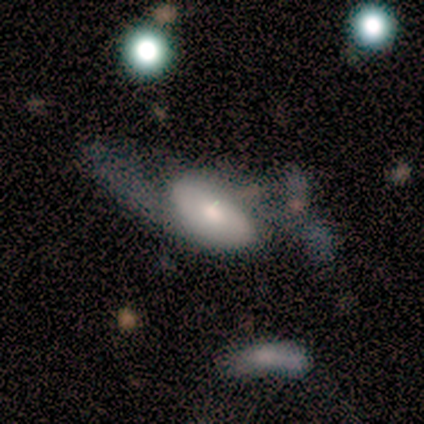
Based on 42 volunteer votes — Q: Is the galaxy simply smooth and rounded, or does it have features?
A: featured or disk — 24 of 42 (57%).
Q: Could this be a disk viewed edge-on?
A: no — 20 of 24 (83%).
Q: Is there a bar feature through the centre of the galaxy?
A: no — 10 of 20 (50%).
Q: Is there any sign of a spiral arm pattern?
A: yes — 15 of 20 (75%).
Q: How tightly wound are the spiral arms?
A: loose — 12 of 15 (80%).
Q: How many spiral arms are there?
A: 2 — 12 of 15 (80%).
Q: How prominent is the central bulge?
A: moderate — 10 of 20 (50%).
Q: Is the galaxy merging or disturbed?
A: major disturbance — 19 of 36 (53%).